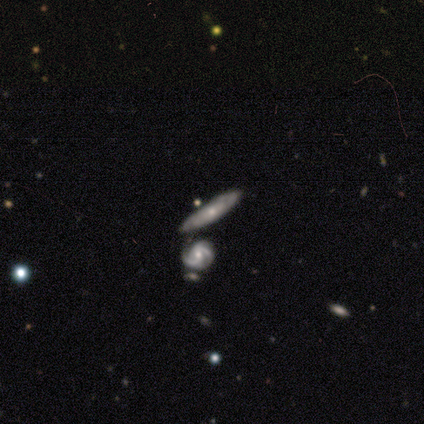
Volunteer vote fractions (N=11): smooth-or-featured: featured or disk: 82% | smooth: 18% | star or artifact: 0%
  disk-edge-on: no: 67% | yes: 33%
    bar: no: 83% | weak: 17% | strong: 0%
    has-spiral-arms: yes: 83% | no: 17%
      spiral-winding: tight: 80% | loose: 20% | medium: 0%
      spiral-arm-count: 2: 60% | can't tell: 40% | 1: 0% | 3: 0% | 4: 0% | more than 4: 0%
    bulge-size: small: 67% | moderate: 33% | dominant: 0% | large: 0% | none: 0%
  merging: none: 55% | merger: 27% | minor disturbance: 18% | major disturbance: 0%